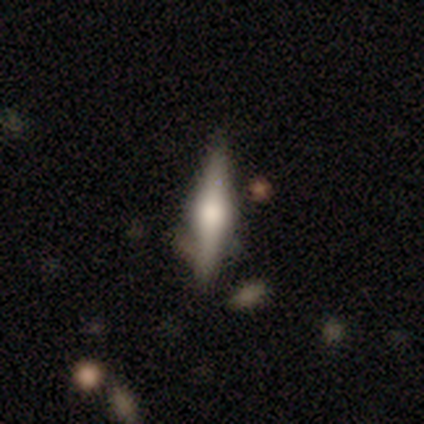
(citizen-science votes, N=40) Smooth or featured? featured or disk (68%)
Edge-on disk? yes (100%)
Edge-on bulge? rounded (100%)
Merging? none (75%)